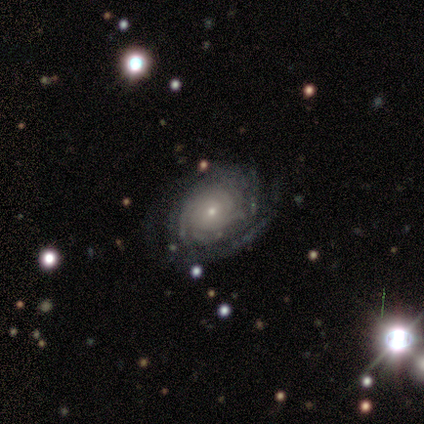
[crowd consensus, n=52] smooth-or-featured: featured or disk: 100% | smooth: 0% | star or artifact: 0%
  disk-edge-on: no: 100% | yes: 0%
    bar: no: 85% | weak: 13% | strong: 2%
    has-spiral-arms: yes: 98% | no: 2%
      spiral-winding: tight: 88% | medium: 10% | loose: 2%
      spiral-arm-count: can't tell: 43% | 3: 20% | 4: 18% | 2: 10% | more than 4: 8% | 1: 2%
    bulge-size: small: 75% | moderate: 23% | large: 2% | dominant: 0% | none: 0%
  merging: none: 69% | minor disturbance: 17% | major disturbance: 13% | merger: 0%